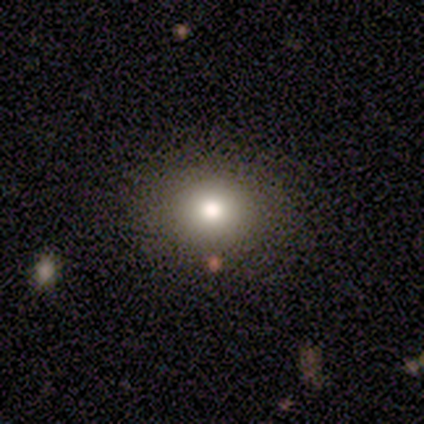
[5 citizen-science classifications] This appears to be a smooth galaxy with no disk features (100%) that is in between round and cigar-shaped (60%). Merging: none (100%).